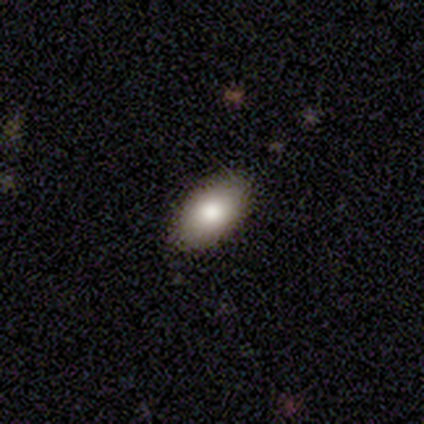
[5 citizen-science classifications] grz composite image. It shows a smooth galaxy with no disk features (100%) that is in between round and cigar-shaped (100%). Merging: none (100%).